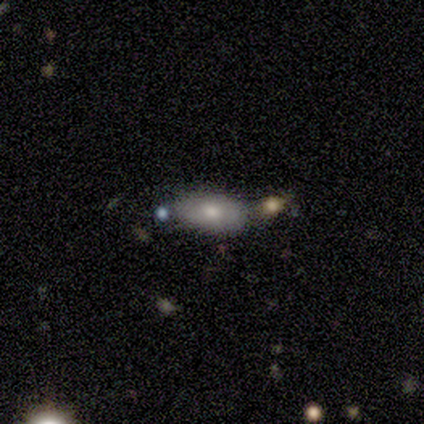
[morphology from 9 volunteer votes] smooth_or_featured: smooth (p=0.78) [alt: featured or disk p=0.11]
how_rounded: in between (p=1.00)
merging: none (p=0.50) [alt: minor disturbance p=0.25]